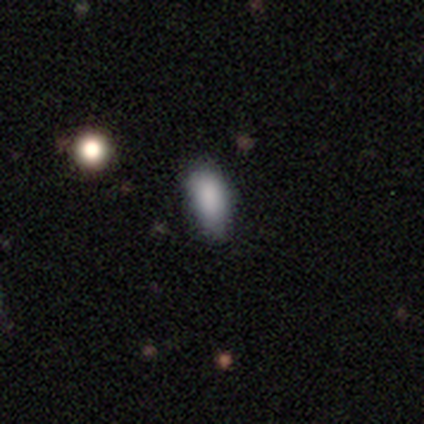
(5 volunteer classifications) Smooth or featured: smooth — 100%
How rounded: in between — 60% (round — 20%)
Merging: none — 60% (minor disturbance — 40%)